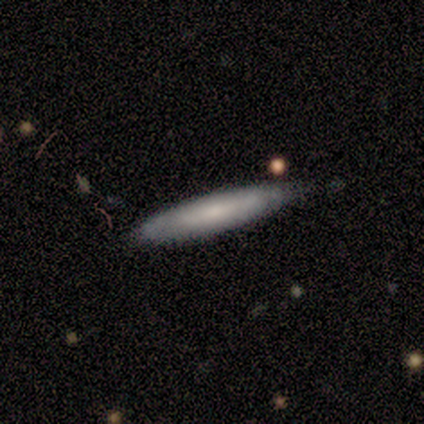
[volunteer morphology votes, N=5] Overall: featured or disk (80%). Edge-on disk: yes (50%, tied with no). Edge-on bulge: rounded (100%). Merging: none (100%).